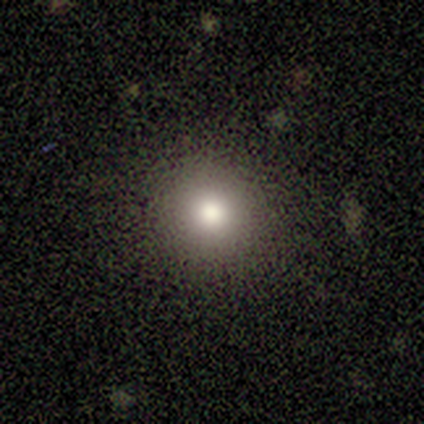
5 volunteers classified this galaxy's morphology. Smooth or featured? smooth (100%)
How rounded? round (100%)
Merging? none (80%)